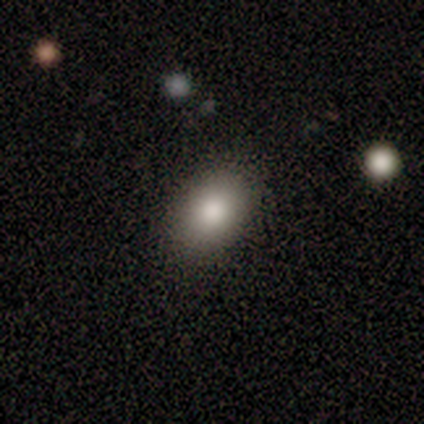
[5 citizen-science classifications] Morphology: type=smooth (40%, tied with featured or disk); roundness=in between (100%); merging=none (75%).